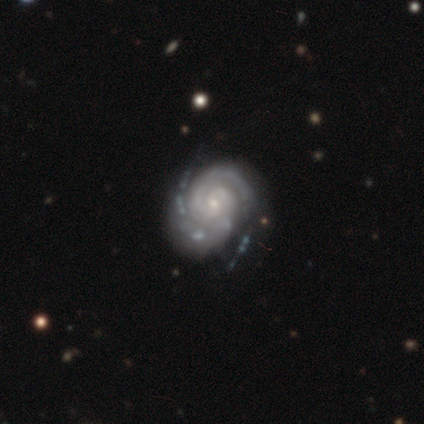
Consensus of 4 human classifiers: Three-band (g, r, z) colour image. It shows a featured or disk galaxy (100%) with a weak bar (50%, tied with no), 2 (100%) tight (100%) spiral arms (100%) and a small central bulge (100%). Merging: none (50%).